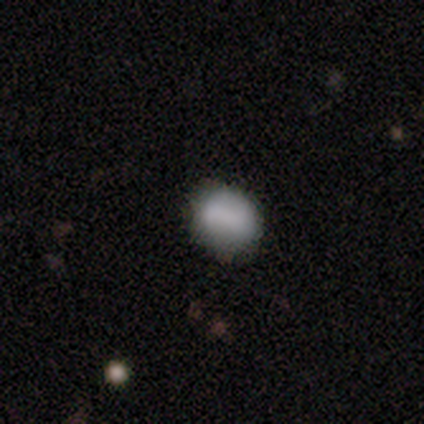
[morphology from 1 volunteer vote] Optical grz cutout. It shows a smooth galaxy with no disk features (100%) that is round (100%). Merging: minor disturbance (100%).